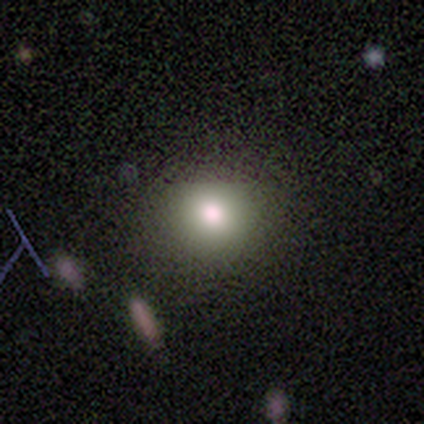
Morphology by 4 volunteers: Smooth or featured? smooth (100%)
How rounded? round (75%)
Merging? none (100%)